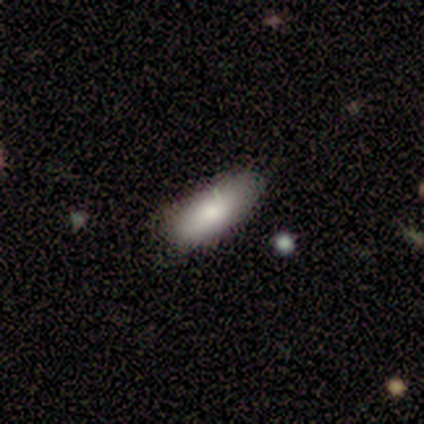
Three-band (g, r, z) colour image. It shows a smooth galaxy with no disk features (100%) that is in between round and cigar-shaped (80%). Merging: minor disturbance (60%).